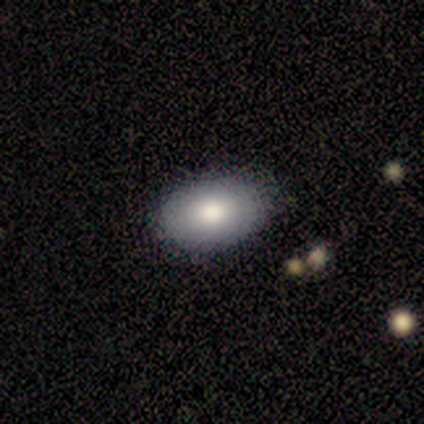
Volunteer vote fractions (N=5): Morphology: type=smooth (80%); roundness=in between (100%); merging=none (100%).